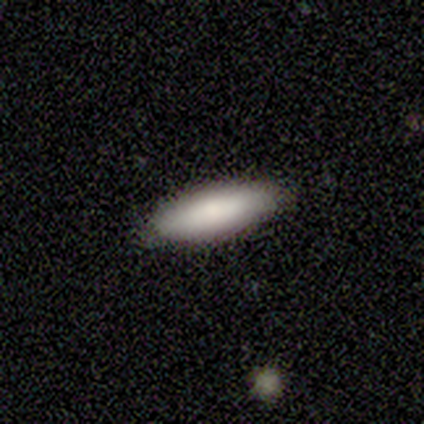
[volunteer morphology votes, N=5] This appears to be a smooth galaxy with no disk features (100%) that is in between round and cigar-shaped (100%). Merging: none (100%).